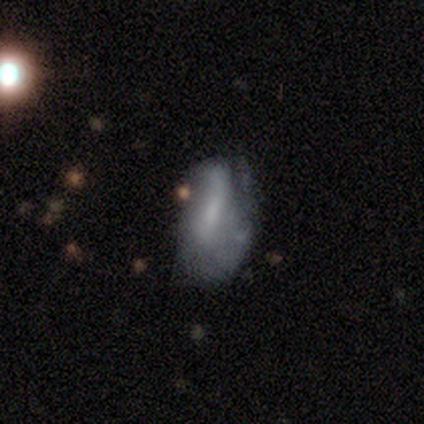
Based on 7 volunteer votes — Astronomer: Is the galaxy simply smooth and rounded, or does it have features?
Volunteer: featured or disk — 57% (runner-up: smooth, 43%).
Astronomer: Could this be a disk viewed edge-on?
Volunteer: no — 100%.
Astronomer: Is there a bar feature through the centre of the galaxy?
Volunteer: no — 75%.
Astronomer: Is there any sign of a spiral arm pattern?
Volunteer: yes — 50%, tied with no at 50%.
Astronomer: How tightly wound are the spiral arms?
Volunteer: tight — 50%, tied with loose at 50%.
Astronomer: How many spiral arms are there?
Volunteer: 1 — 50%, tied with can't tell at 50%.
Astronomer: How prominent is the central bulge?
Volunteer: none — 50%.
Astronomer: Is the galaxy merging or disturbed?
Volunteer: none — 57%.